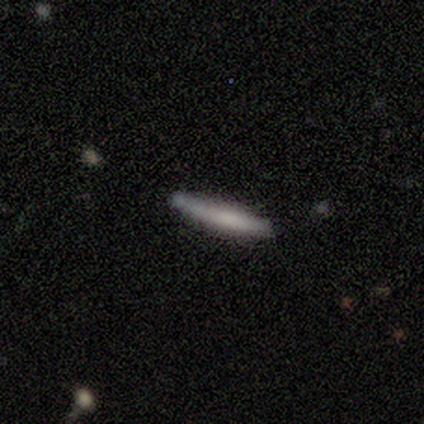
Morphology: type=smooth (64%); roundness=cigar-shaped (100%); merging=none (82%).